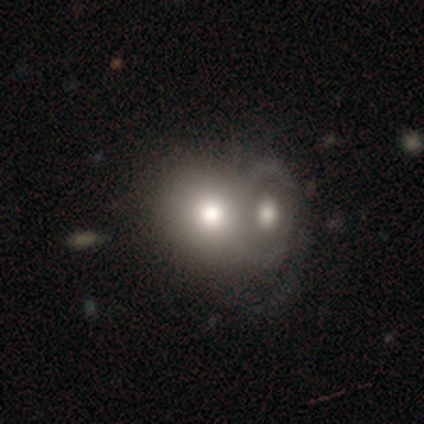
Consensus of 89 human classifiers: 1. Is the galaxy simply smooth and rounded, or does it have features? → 64% smooth, 31% featured or disk, 4% star or artifact.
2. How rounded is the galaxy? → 75% round, 23% in between, 2% cigar-shaped.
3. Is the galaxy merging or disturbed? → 79% merger, 12% none, 7% major disturbance, 2% minor disturbance.